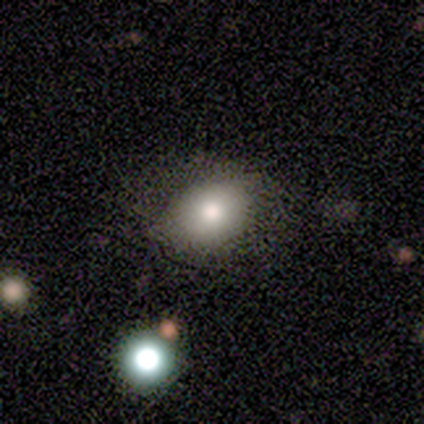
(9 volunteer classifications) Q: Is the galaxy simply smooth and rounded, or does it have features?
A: star or artifact — 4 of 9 (44%).